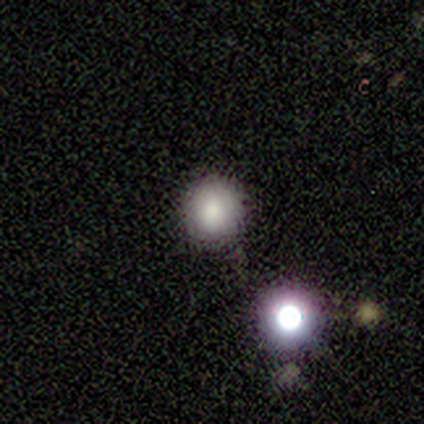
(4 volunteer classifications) Smooth or featured: smooth — 75% (featured or disk — 25%)
How rounded: round — 100%
Merging: none — 75% (minor disturbance — 25%)